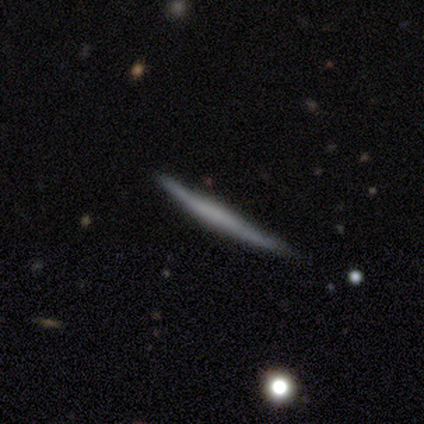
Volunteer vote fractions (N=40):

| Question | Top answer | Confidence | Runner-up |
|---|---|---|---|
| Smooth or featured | featured or disk | 57% | smooth (38%) |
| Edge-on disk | yes | 100% | — |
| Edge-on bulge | none | 48% | boxy (30%) |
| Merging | none | 76% | minor disturbance (16%) |